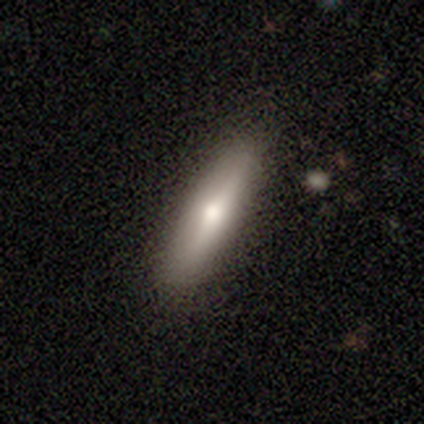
Volunteers were most divided on "smooth or featured" (2-way tie): smooth: 46%, featured or disk: 46%, star or artifact: 8%. More confident: merging — none (89%); how rounded — cigar-shaped (72%).